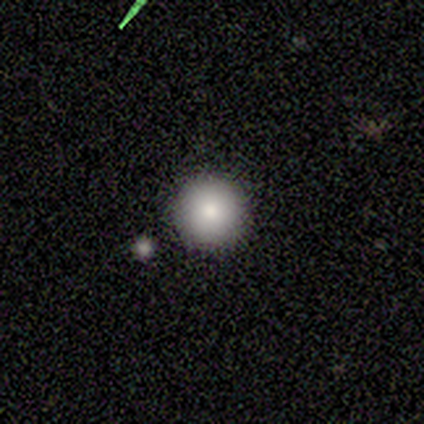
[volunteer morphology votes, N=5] smooth 80%, star or artifact 20%, featured or disk 0%. Down the decision tree: how rounded — round (100%); merging — none (100%).